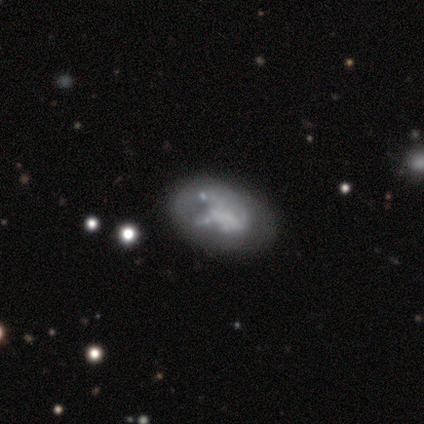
Smooth or featured: featured or disk — 71% (smooth — 14%)
Edge-on disk: no — 100%
Bar: no — 80% (weak — 20%)
Spiral arms: no — 80% (yes — 20%)
Bulge size: large — 40% (moderate — 20%)
Merging: minor disturbance — 67% (none — 17%)